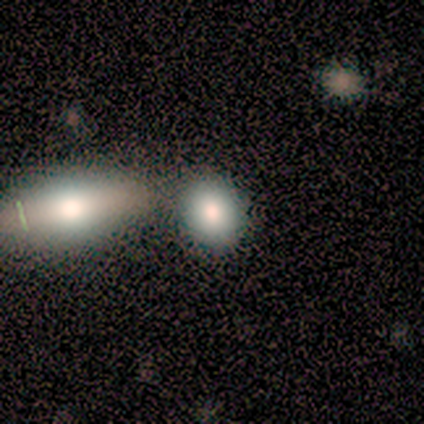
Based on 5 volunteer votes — Smooth or featured? 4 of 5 (80%) said smooth. How rounded? 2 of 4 (50%, tied with in between) said round. Merging? 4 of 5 (80%) said none.